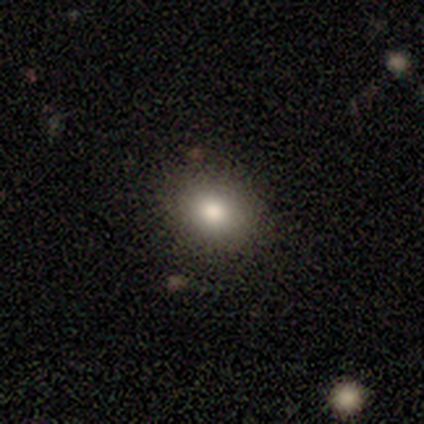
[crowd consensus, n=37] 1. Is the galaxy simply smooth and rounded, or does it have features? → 89% smooth, 5% featured or disk, 5% star or artifact.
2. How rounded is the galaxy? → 64% round, 36% in between, 0% cigar-shaped.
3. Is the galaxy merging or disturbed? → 91% none, 6% merger, 3% minor disturbance, 0% major disturbance.